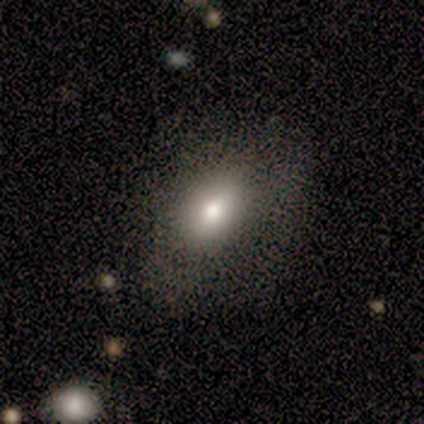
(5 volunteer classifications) This appears to be a smooth galaxy with no disk features (100%) that is in between round and cigar-shaped (100%). Merging: none (60%).